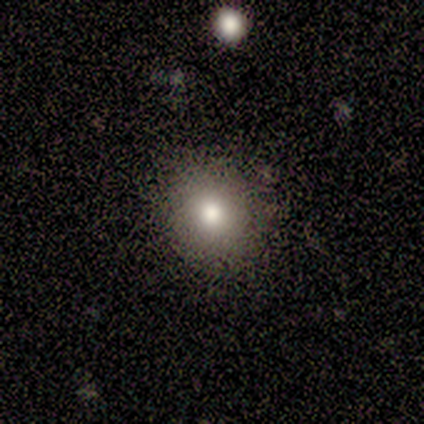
smooth_or_featured: smooth (p=0.60) [alt: star or artifact p=0.40]
how_rounded: in between (p=0.67) [alt: round p=0.33]
merging: none (p=1.00)